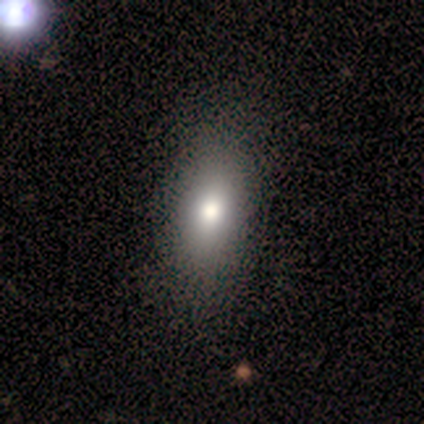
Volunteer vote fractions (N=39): Smooth or featured?
  - smooth: 82% *
  - featured or disk: 15%
  - star or artifact: 3%
How rounded?
  - in between: 81% *
  - cigar-shaped: 16%
  - round: 3%
Merging?
  - none: 66% *
  - merger: 3%
  - minor disturbance: 0%
  - major disturbance: 0%